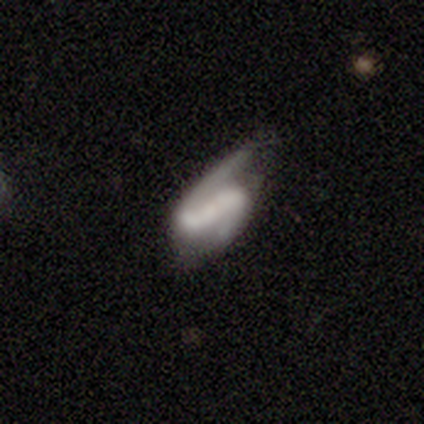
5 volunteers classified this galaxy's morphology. smooth-or-featured: featured or disk: 80% | star or artifact: 20% | smooth: 0%
  disk-edge-on: no: 100% | yes: 0%
    bar: strong: 50% | weak: 25% | no: 25%
    has-spiral-arms: yes: 100% | no: 0%
      spiral-winding: medium: 50% (tied) | loose: 50% (tied) | tight: 0%
      spiral-arm-count: 2: 75% | 1: 25% | 3: 0% | 4: 0% | more than 4: 0% | can't tell: 0%
    bulge-size: small: 50% (tied) | none: 50% (tied) | dominant: 0% | large: 0% | moderate: 0%
  merging: none: 75% | major disturbance: 25% | minor disturbance: 0% | merger: 0%